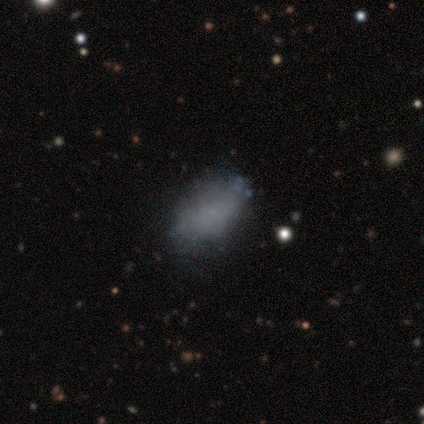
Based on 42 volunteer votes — Overall: smooth (74%). How rounded: in between (90%). Merging: none (73%).